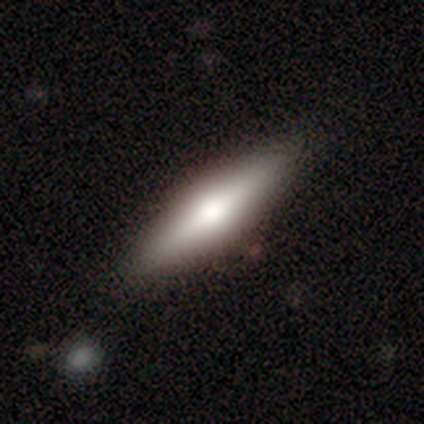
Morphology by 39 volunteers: This appears to be a smooth galaxy with no disk features (51%) that is cigar-shaped (75%). Merging: none (86%).